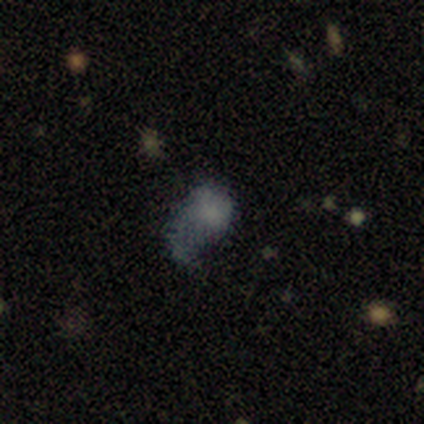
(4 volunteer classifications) Morphology: type=smooth (50%); roundness=in between (100%); merging=none (33%, tied with minor disturbance and major disturbance).